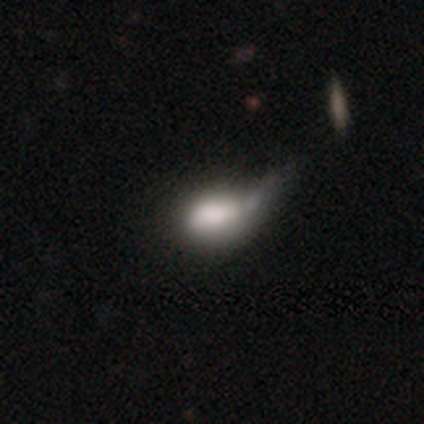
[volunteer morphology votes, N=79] This is likely a smooth galaxy (75%). How rounded: likely in between (78%). Merging: marginally major disturbance (25%).